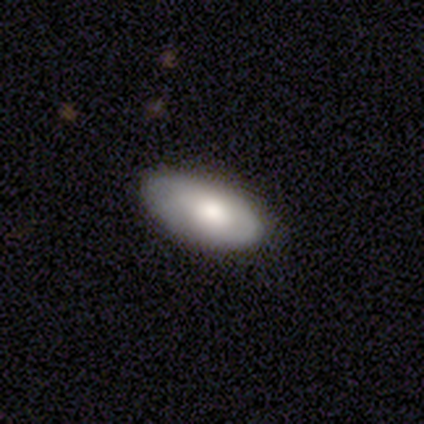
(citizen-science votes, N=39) Smooth or featured? smooth (74%)
How rounded? in between (97%)
Merging? none (81%)